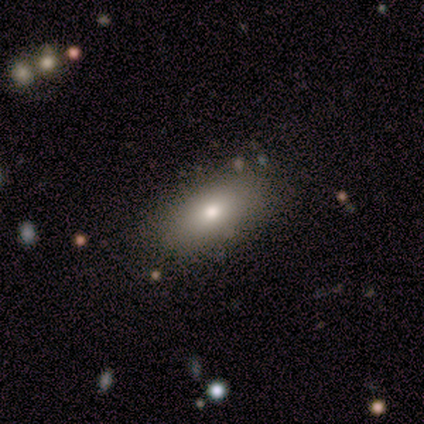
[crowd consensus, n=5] smooth_or_featured: smooth (p=0.80) [alt: featured or disk p=0.20]
how_rounded: in between (p=1.00)
merging: none (p=0.80) [alt: minor disturbance p=0.20]